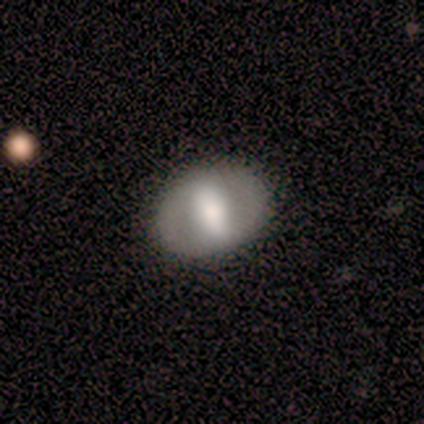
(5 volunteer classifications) This appears to be a smooth galaxy with no disk features (60%) that is in between round and cigar-shaped (67%). Merging: none (100%).